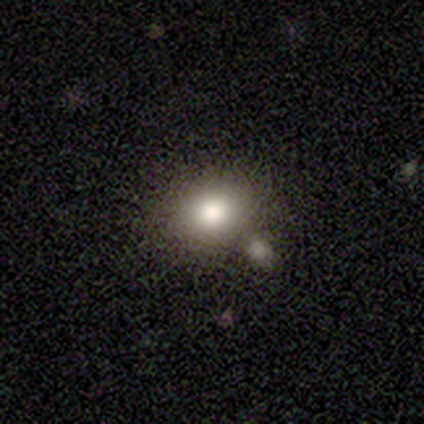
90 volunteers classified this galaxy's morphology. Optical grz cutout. It shows a smooth galaxy with no disk features (80%) that is round (54%). Merging: none (67%).